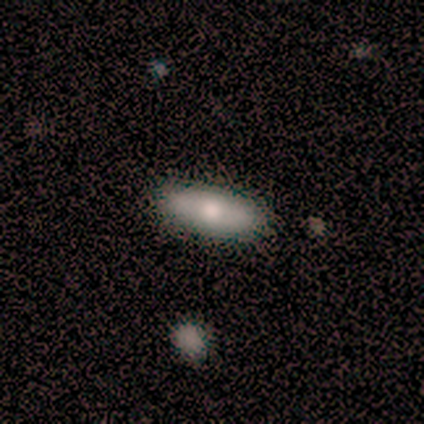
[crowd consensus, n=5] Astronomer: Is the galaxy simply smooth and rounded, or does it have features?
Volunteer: smooth — 80%.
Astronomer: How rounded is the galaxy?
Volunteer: in between — 75%.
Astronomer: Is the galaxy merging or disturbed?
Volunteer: none — 80%.